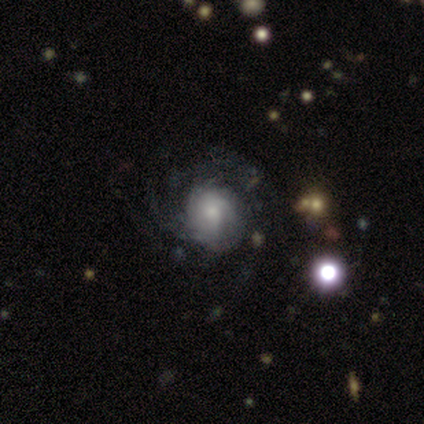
This is likely a featured or disk galaxy (70%). It is clearly not viewed edge-on (100%). Bar: likely no (75%). Spiral arm pattern: likely yes (71%). Spiral arm count: marginally can't tell (40%). Spiral winding: possibly tight (45%). Central bulge: possibly moderate (50%). Merging: likely none (61%).